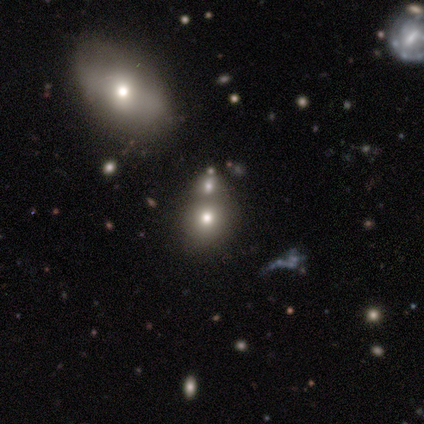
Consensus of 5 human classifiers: This appears to be a smooth galaxy with no disk features (60%) that is round (67%). Merging: none (67%).